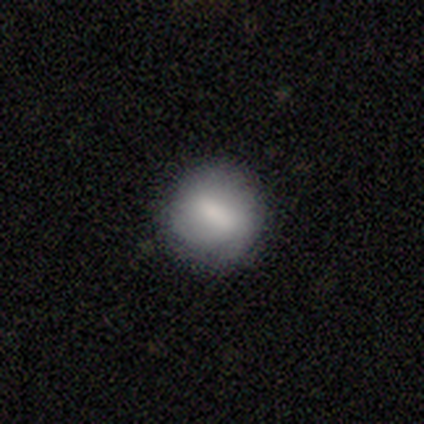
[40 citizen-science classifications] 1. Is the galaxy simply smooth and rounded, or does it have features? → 72% smooth, 22% featured or disk, 5% star or artifact.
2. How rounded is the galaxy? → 90% round, 7% cigar-shaped, 3% in between.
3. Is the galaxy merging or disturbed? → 76% none, 16% minor disturbance, 5% major disturbance, 3% merger.